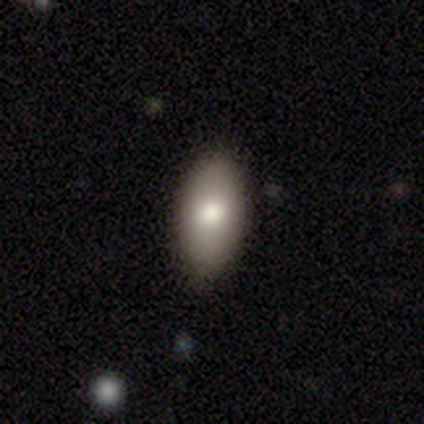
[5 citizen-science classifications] Q: Smooth or featured?
A: smooth (80%); runner-up: featured or disk (20%)
Q: How rounded?
A: in between (100%)
Q: Merging?
A: none (100%)